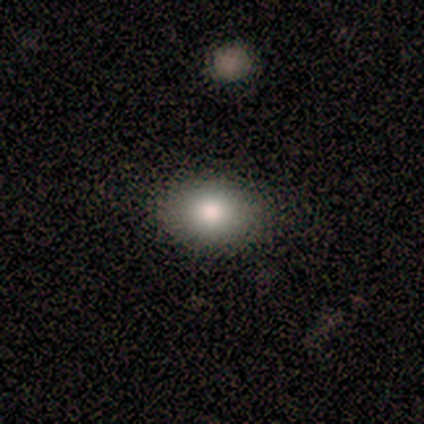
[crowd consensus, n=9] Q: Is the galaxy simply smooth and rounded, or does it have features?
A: smooth — 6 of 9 (67%).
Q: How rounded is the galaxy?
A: in between — 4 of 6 (67%).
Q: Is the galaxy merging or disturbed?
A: none — 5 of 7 (71%).